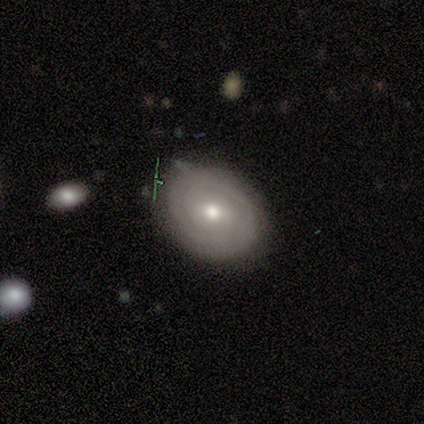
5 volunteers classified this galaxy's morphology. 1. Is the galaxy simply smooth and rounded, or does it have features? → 80% featured or disk, 20% smooth, 0% star or artifact.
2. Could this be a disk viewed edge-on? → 100% no, 0% yes.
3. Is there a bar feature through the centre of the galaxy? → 75% weak, 25% no, 0% strong.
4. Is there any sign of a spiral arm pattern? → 50% yes (tied), 50% no (tied).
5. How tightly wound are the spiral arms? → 100% tight, 0% medium, 0% loose.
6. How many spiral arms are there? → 100% can't tell, 0% 1, 0% 2, 0% 3, 0% 4, 0% more than 4.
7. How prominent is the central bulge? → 100% moderate, 0% dominant, 0% large, 0% small, 0% none.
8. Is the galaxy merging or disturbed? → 80% none, 20% minor disturbance, 0% major disturbance, 0% merger.